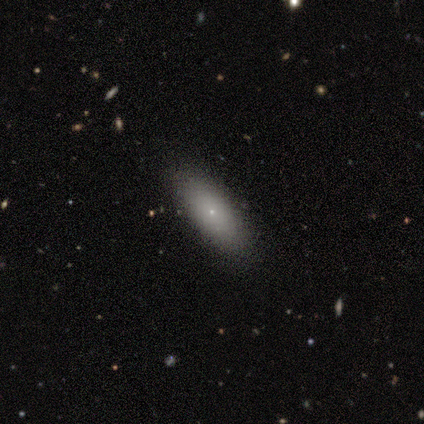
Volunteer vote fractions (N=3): Volunteers were most divided on "how rounded": cigar-shaped: 67%, in between: 33%, round: 0%. More confident: smooth or featured — smooth (100%); merging — none (100%).